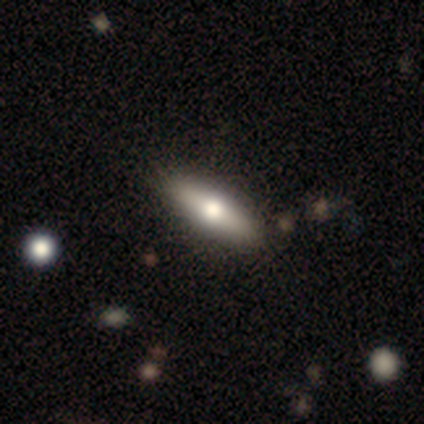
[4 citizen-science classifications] Q: Smooth or featured?
A: featured or disk (50%); runner-up: smooth (25%)
Q: Edge-on disk?
A: yes (100%)
Q: Edge-on bulge?
A: rounded (100%)
Q: Merging?
A: none (100%)